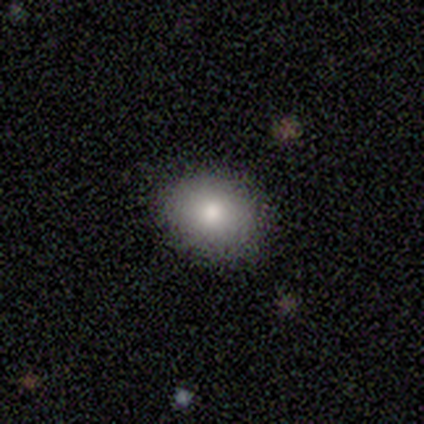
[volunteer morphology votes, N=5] Overall: smooth (100%). How rounded: in between (60%; round 40%). Merging: none (100%).